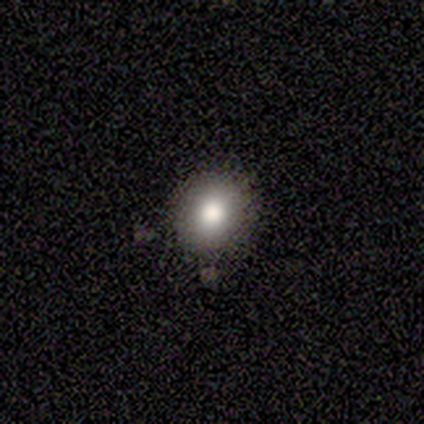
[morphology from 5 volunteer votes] Smooth or featured? smooth (100%)
How rounded? round (60%)
Merging? minor disturbance (60%)